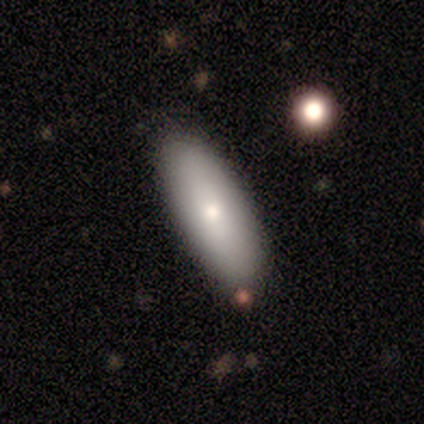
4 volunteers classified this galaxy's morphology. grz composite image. It shows a smooth galaxy with no disk features (100%) that is in between round and cigar-shaped (50%, tied with cigar-shaped). Merging: none (100%).